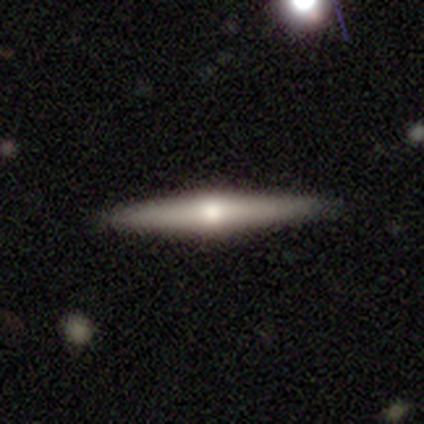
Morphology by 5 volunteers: Volunteers were most divided on "edge-on bulge": rounded: 60%, none: 40%, boxy: 0%. More confident: smooth or featured — featured or disk (100%); edge-on disk — yes (100%); merging — none (80%).